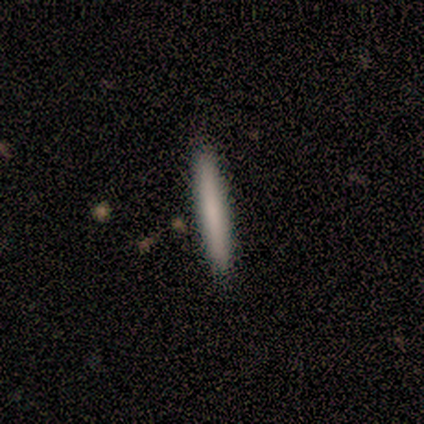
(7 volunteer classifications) Morphology: type=smooth (71%); roundness=cigar-shaped (100%); merging=none (100%).